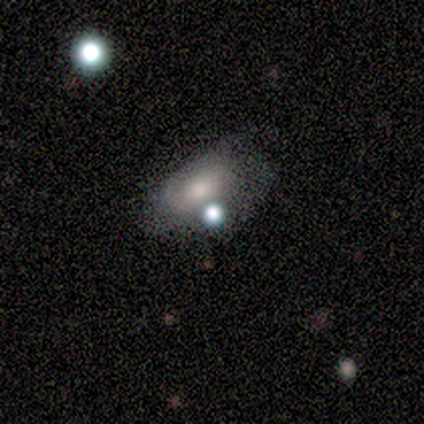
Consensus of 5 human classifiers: smooth-or-featured: featured or disk: 60% | smooth: 20% | star or artifact: 20%
  disk-edge-on: no: 100% | yes: 0%
    bar: no: 100% | strong: 0% | weak: 0%
    has-spiral-arms: yes: 100% | no: 0%
      spiral-winding: tight: 67% | loose: 33% | medium: 0%
      spiral-arm-count: 2: 67% | 3: 33% | 1: 0% | 4: 0% | more than 4: 0% | can't tell: 0%
    bulge-size: moderate: 67% | small: 33% | dominant: 0% | large: 0% | none: 0%
  merging: none: 50% (tied) | minor disturbance: 50% (tied) | major disturbance: 0% | merger: 0%